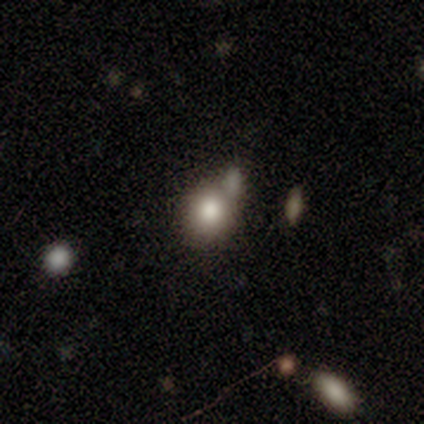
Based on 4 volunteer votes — Smooth or featured: smooth — 100%
How rounded: round — 50% (tied with in between — 50%)
Merging: none — 75% (merger — 25%)